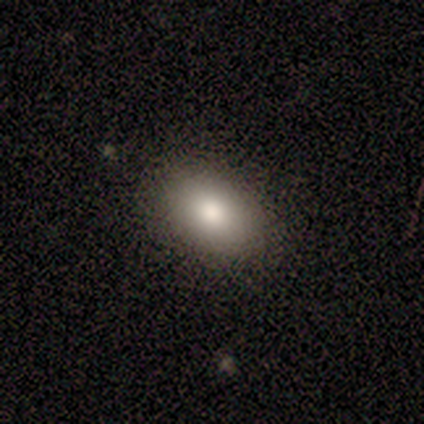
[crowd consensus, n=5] smooth_or_featured: smooth (p=1.00)
how_rounded: in between (p=0.80) [alt: round p=0.20]
merging: none (p=0.80) [alt: minor disturbance p=0.20]